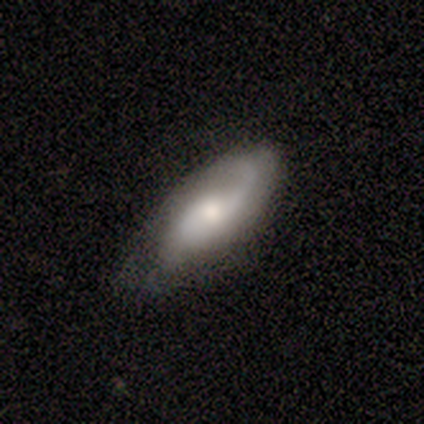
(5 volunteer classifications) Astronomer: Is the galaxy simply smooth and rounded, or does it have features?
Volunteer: featured or disk — 60% (runner-up: smooth, 40%).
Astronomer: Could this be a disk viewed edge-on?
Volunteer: no — 100%.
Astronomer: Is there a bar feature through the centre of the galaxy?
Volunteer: no — 67%.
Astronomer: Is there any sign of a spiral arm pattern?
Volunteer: yes — 100%.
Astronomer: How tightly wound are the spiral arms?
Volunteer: loose — 67%.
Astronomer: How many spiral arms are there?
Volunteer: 2 — 67%.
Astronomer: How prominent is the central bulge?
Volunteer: large — 33%, tied with moderate and small at 33%.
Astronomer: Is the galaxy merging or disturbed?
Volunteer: none — 80%.